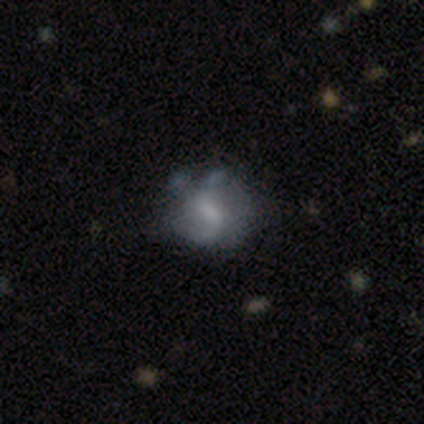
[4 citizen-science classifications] smooth_or_featured: featured or disk (p=1.00)
disk_edge_on: no (p=1.00)
bar: weak (p=0.50) [alt: strong p=0.25]
has_spiral_arms: yes (p=0.50) [tied with: no p=0.50]
spiral_winding: medium (p=0.50) [tied with: loose p=0.50]
spiral_arm_count: 1 (p=0.50) [tied with: 2 p=0.50]
bulge_size: moderate (p=0.75) [alt: none p=0.25]
merging: none (p=0.75) [alt: merger p=0.25]